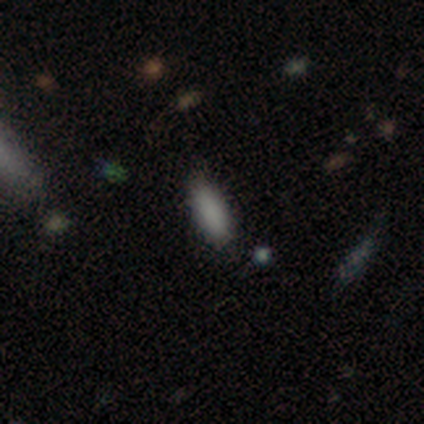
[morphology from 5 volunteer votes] smooth 100%, featured or disk 0%, star or artifact 0%. Down the decision tree: how rounded — in between (80%); merging — none (100%).